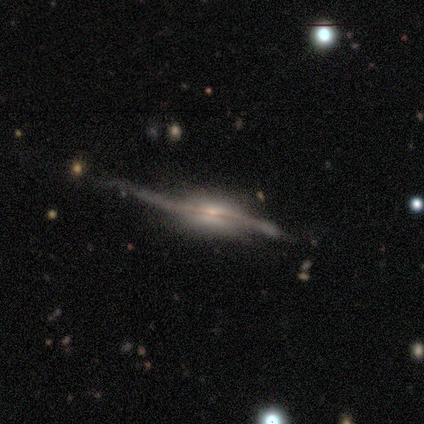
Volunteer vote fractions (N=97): A featured or disk galaxy (94%) viewed edge-on (89%) with a rounded central bulge (57%).

Vote fractions:
- Smooth or featured? featured or disk: 94% / smooth: 5% / star or artifact: 1%
- Edge-on disk? yes: 89% / no: 11%
- Edge-on bulge? rounded: 57% / boxy: 40% / none: 4%
- Merging? none: 46% / minor disturbance: 31% / major disturbance: 22% / merger: 1%